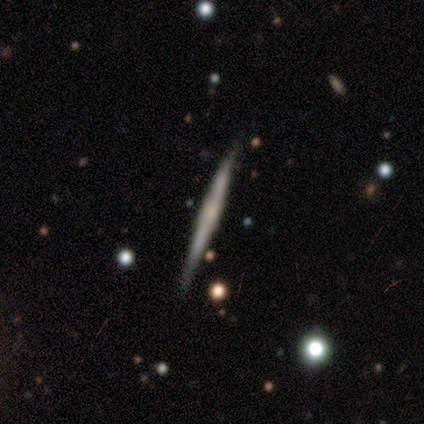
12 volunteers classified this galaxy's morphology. Smooth or featured? 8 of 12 (67%) said featured or disk. Edge-on disk? 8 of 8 (100%) said yes. Edge-on bulge? 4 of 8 (50%) said rounded. Merging? 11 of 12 (92%) said none.